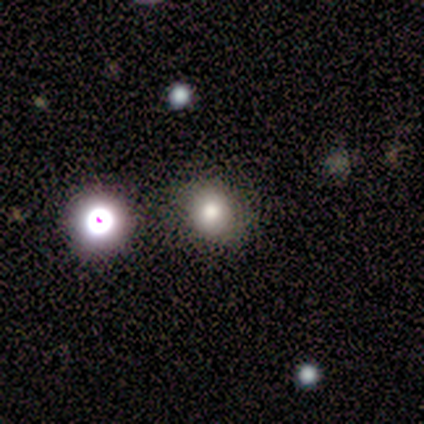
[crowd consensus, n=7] Morphology: type=smooth (71%); roundness=round (100%); merging=none (83%).